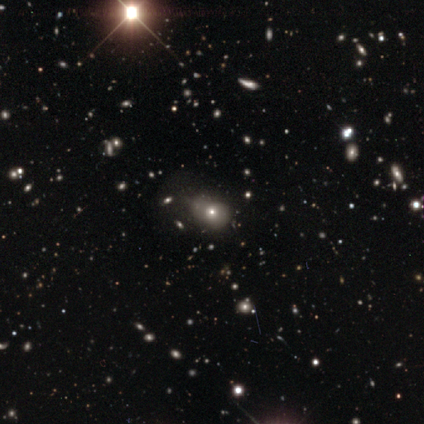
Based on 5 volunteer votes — Volunteers were most divided on "smooth or featured" (2-way tie): smooth: 40%, featured or disk: 40%, star or artifact: 20%; "how rounded" (2-way tie): round: 50%, in between: 50%, cigar-shaped: 0%. More confident: merging — none (75%).